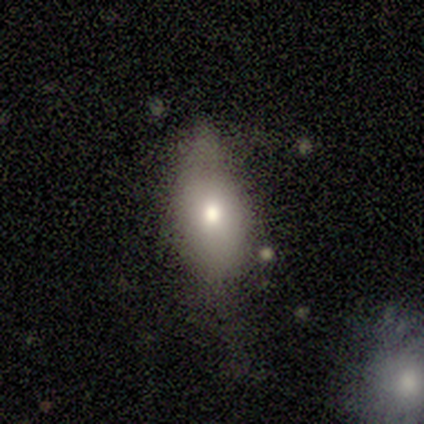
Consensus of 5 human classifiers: smooth-or-featured: star or artifact: 60% | smooth: 40% | featured or disk: 0%